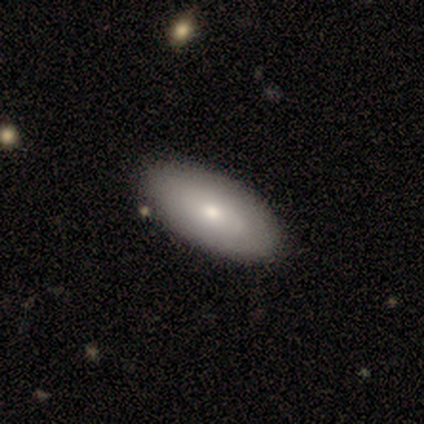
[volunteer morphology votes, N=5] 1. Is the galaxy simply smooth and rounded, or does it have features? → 60% smooth, 40% featured or disk, 0% star or artifact.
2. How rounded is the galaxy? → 100% in between, 0% round, 0% cigar-shaped.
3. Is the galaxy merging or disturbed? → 80% none, 20% minor disturbance, 0% major disturbance, 0% merger.